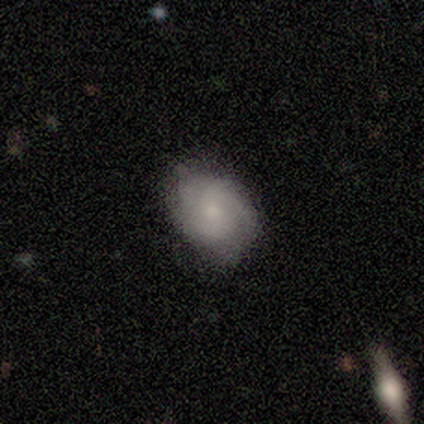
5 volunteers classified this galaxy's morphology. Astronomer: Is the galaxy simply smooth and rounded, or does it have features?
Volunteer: smooth — 60% (runner-up: featured or disk, 40%).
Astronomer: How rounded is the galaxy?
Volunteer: in between — 67%.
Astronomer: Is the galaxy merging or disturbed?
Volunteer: none — 100%.